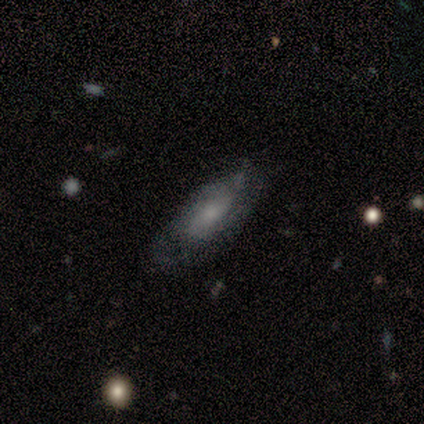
This is possibly a smooth galaxy (50%, tied with featured or disk). How rounded: clearly in between (100%). Merging: clearly none (88%).